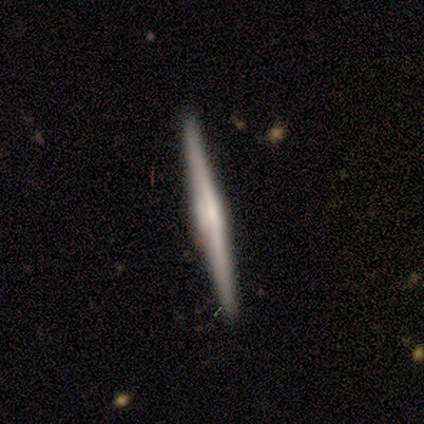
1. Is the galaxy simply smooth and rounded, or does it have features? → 75% smooth, 25% featured or disk, 0% star or artifact.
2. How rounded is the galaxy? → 100% cigar-shaped, 0% round, 0% in between.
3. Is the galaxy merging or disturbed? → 100% none, 0% minor disturbance, 0% major disturbance, 0% merger.